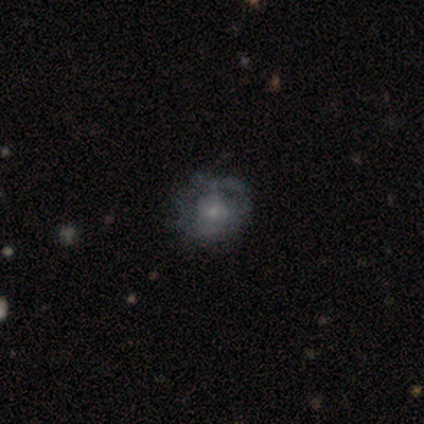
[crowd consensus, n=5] This is clearly a featured or disk galaxy (80%). It is clearly not viewed edge-on (100%). Bar: clearly no (100%). Spiral arm pattern: likely no (75%). Central bulge: clearly small (100%). Merging: likely none (75%).